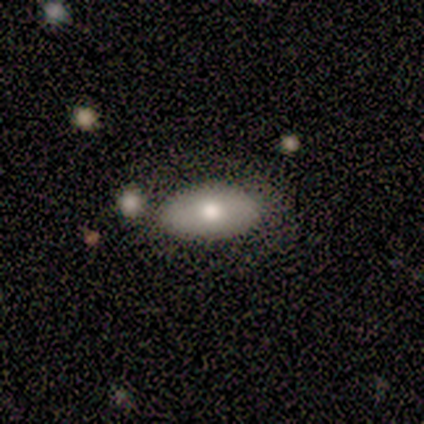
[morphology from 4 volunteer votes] Q: Smooth or featured?
A: smooth (100%)
Q: How rounded?
A: in between (75%); runner-up: round (25%)
Q: Merging?
A: none (75%); runner-up: minor disturbance (25%)